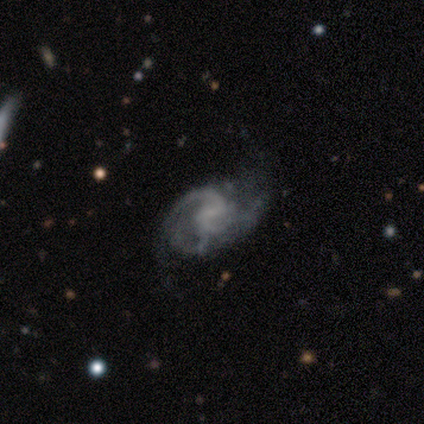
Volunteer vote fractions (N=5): Smooth or featured: featured or disk — 100%
Edge-on disk: no — 100%
Bar: weak — 60% (no — 40%)
Spiral arms: yes — 100%
Spiral winding: medium — 80% (loose — 20%)
Spiral arm count: 2 — 60% (3 — 20%)
Bulge size: none — 60% (moderate — 20%)
Merging: none — 60% (minor disturbance — 40%)